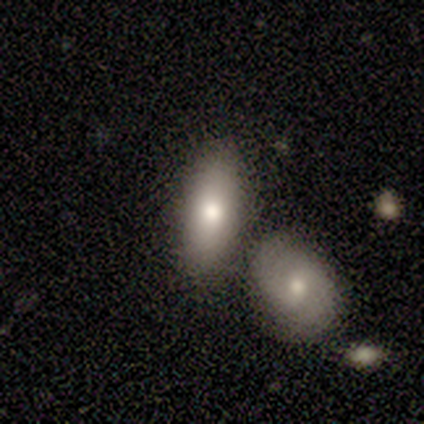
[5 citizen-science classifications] Volunteers were most divided on "smooth or featured": smooth: 60%, featured or disk: 40%, star or artifact: 0%. More confident: how rounded — cigar-shaped (67%); merging — merger (60%).